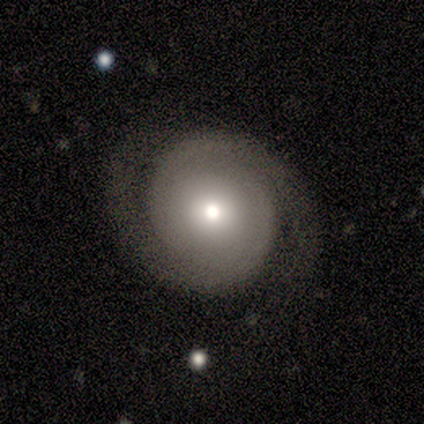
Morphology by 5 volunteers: Overall: featured or disk (80%). Edge-on disk: no (100%). Bar: no (75%). Spiral arms: yes (75%). Spiral arm count: 2 (67%; can't tell 33%). Spiral winding: tight (67%; loose 33%). Bulge size: moderate (75%). Merging: none (100%).